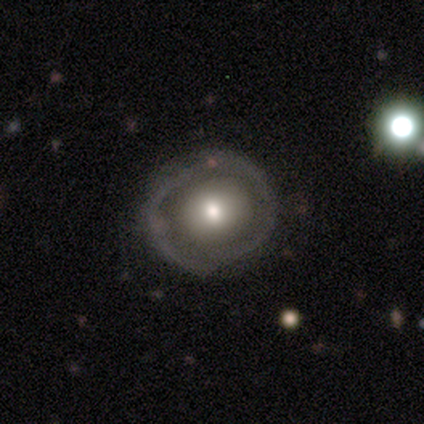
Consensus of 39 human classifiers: Smooth or featured: featured or disk — 54% (smooth — 46%)
Edge-on disk: no — 90% (yes — 10%)
Bar: no — 95% (strong — 5%)
Spiral arms: no — 84% (yes — 16%)
Bulge size: moderate — 68% (small — 16%)
Merging: none — 38% (minor disturbance — 8%)